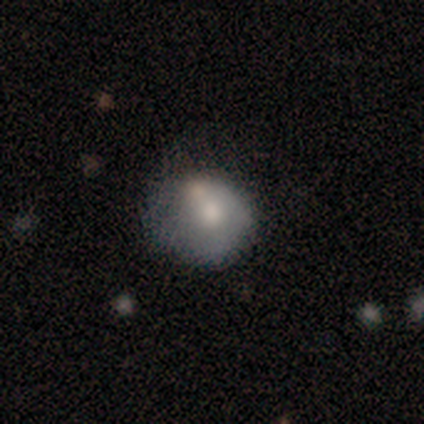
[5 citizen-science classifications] Overall: smooth (40%, tied with star or artifact). How rounded: round (100%). Merging: none (67%; major disturbance 33%).